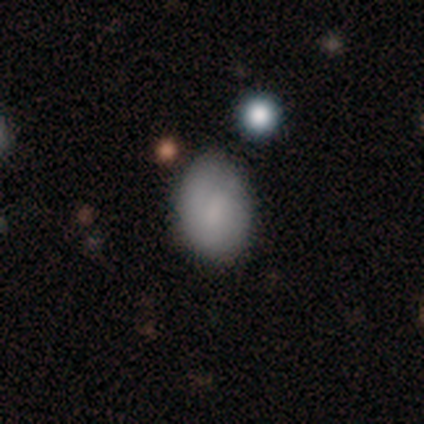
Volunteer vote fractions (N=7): This appears to be a smooth galaxy with no disk features (71%) that is in between round and cigar-shaped (60%). Merging: none (71%).